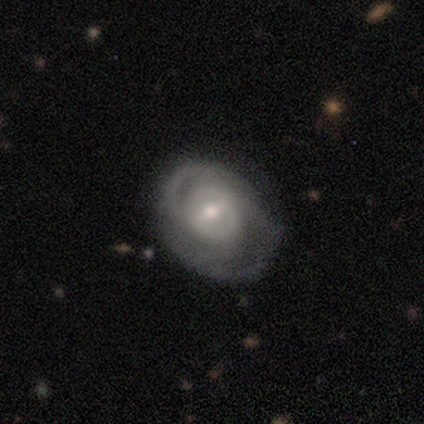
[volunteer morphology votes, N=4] smooth-or-featured: featured or disk: 100% | smooth: 0% | star or artifact: 0%
  disk-edge-on: no: 100% | yes: 0%
    bar: weak: 50% | strong: 25% | no: 25%
    has-spiral-arms: yes: 100% | no: 0%
      spiral-winding: tight: 75% | medium: 25% | loose: 0%
      spiral-arm-count: 4: 50% (tied) | can't tell: 50% (tied) | 1: 0% | 2: 0% | 3: 0% | more than 4: 0%
    bulge-size: small: 75% | moderate: 25% | dominant: 0% | large: 0% | none: 0%
  merging: none: 75% | minor disturbance: 25% | major disturbance: 0% | merger: 0%